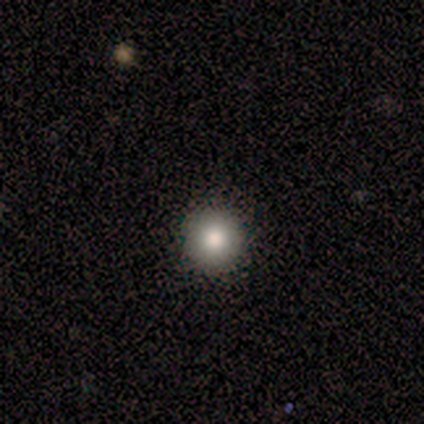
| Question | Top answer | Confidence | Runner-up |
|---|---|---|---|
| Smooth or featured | smooth | 80% | star or artifact (20%) |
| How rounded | round | 100% | — |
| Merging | none | 100% | — |